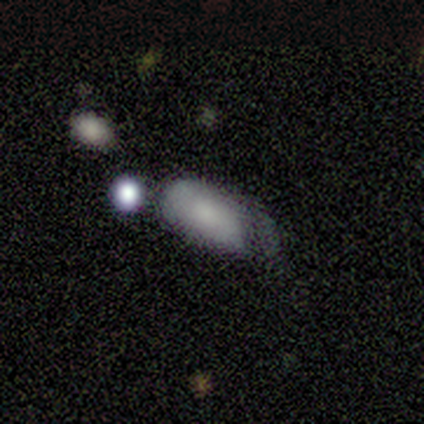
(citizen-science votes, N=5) A smooth galaxy with no disk features (100%) that is in between round and cigar-shaped (100%). Merging: minor disturbance (60%).